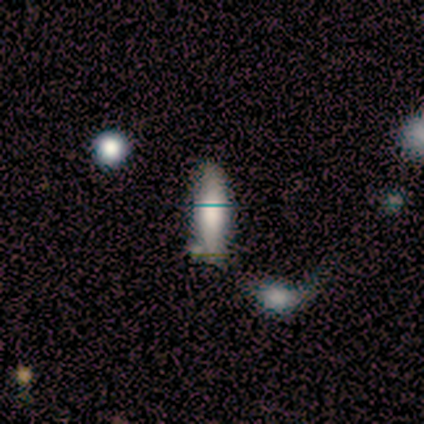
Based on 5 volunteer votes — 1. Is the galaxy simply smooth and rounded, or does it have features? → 80% smooth, 20% featured or disk, 0% star or artifact.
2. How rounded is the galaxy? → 50% in between (tied), 50% cigar-shaped (tied), 0% round.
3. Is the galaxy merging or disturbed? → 60% none, 40% minor disturbance, 0% major disturbance, 0% merger.